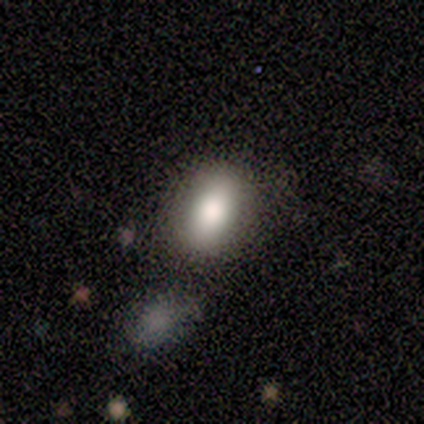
Morphology: type=smooth (80%); roundness=in between (100%); merging=none (80%).